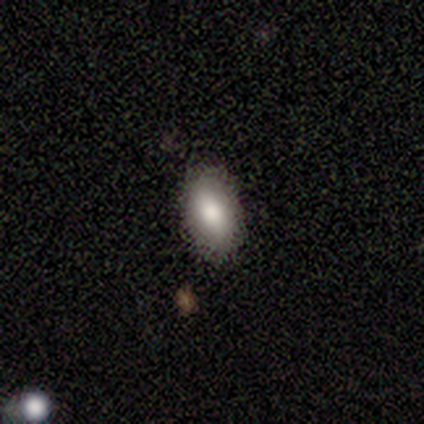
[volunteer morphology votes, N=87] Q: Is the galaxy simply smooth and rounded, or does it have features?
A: smooth — 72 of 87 (83%).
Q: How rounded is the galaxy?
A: in between — 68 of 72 (94%).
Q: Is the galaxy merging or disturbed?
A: none — 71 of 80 (89%).